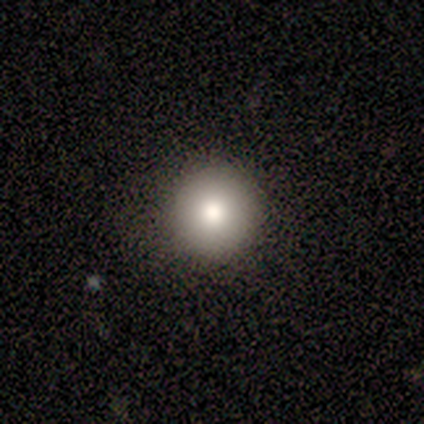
Q: Smooth or featured?
A: smooth (100%)
Q: How rounded?
A: round (100%)
Q: Merging?
A: none (100%)